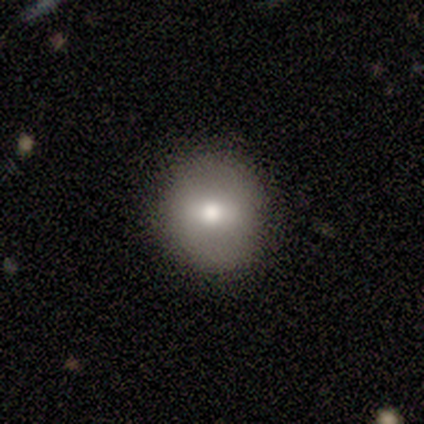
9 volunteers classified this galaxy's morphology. This appears to be a smooth galaxy with no disk features (89%) that is round (100%). Merging: none (100%).